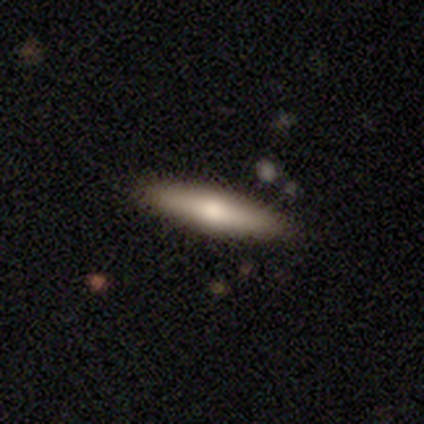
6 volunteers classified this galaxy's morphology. This appears to be a smooth galaxy with no disk features (50%) that is cigar-shaped (100%). Merging: none (100%).